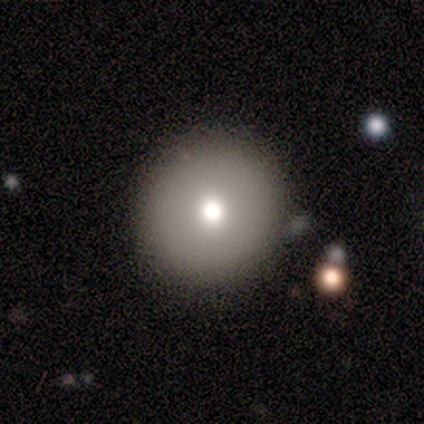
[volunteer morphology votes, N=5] type=smooth (60%); roundness=round (67%); merging=none (80%).